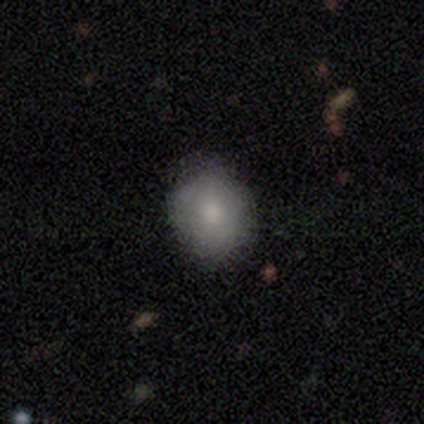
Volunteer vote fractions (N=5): Smooth or featured: smooth — 100%
How rounded: in between — 60% (round — 40%)
Merging: none — 100%